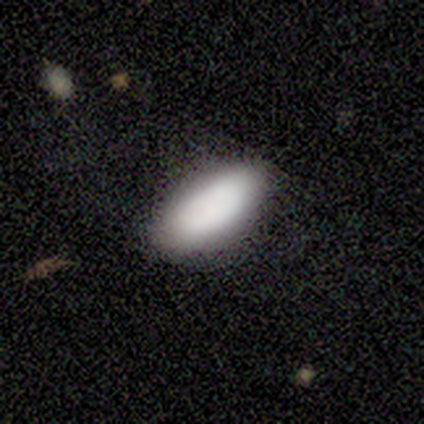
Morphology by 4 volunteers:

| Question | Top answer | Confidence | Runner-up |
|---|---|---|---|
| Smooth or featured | smooth | 50% | featured or disk (25%) |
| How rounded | in between | 50% | tied: cigar-shaped (50%) |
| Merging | none | 100% | — |